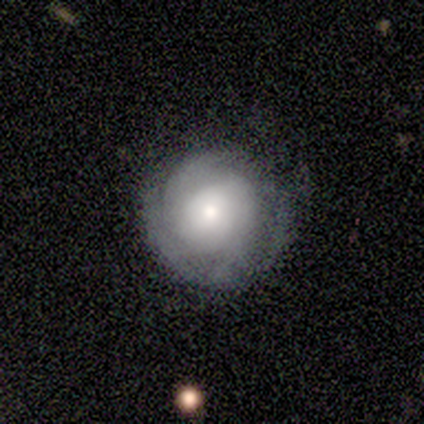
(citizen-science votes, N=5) A smooth galaxy with no disk features (80%) that is round (75%).

Vote fractions:
- Smooth or featured? smooth: 80% / featured or disk: 20% / star or artifact: 0%
- How rounded? round: 75% / in between: 25% / cigar-shaped: 0%
- Merging? none: 80% / major disturbance: 20% / minor disturbance: 0% / merger: 0%